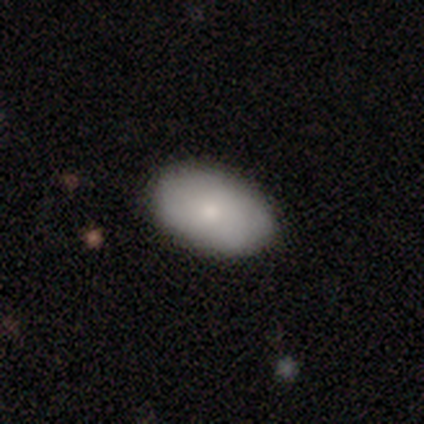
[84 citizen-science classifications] A smooth galaxy with no disk features (73%) that is in between round and cigar-shaped (90%). Merging: none (79%).